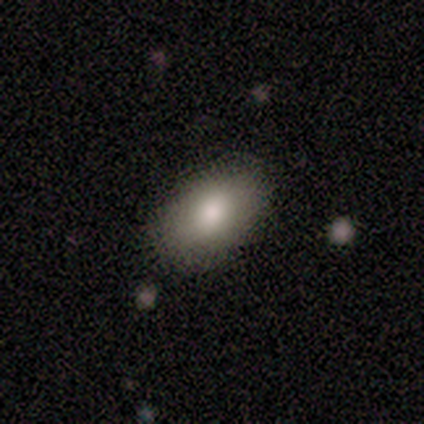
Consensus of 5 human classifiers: A smooth galaxy with no disk features (80%) that is in between round and cigar-shaped (100%). Merging: none (100%).